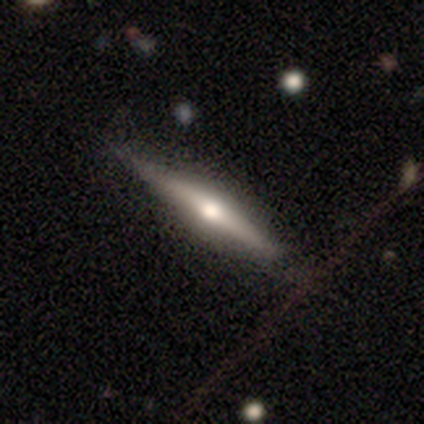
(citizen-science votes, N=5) Smooth or featured? featured or disk (80%)
Edge-on disk? yes (100%)
Edge-on bulge? rounded (100%)
Merging? none (100%)